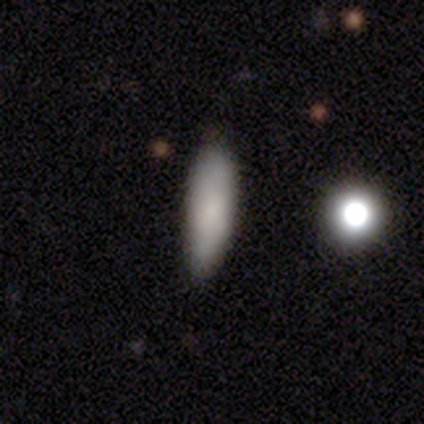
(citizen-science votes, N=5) Volunteers were most divided on "how rounded": cigar-shaped: 80%, in between: 20%, round: 0%. More confident: smooth or featured — smooth (100%); merging — none (100%).